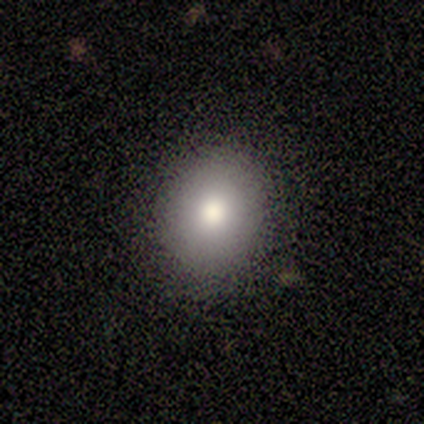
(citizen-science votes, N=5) smooth 60%, featured or disk 40%, star or artifact 0%. Down the decision tree: how rounded — round (67%); merging — none (100%).